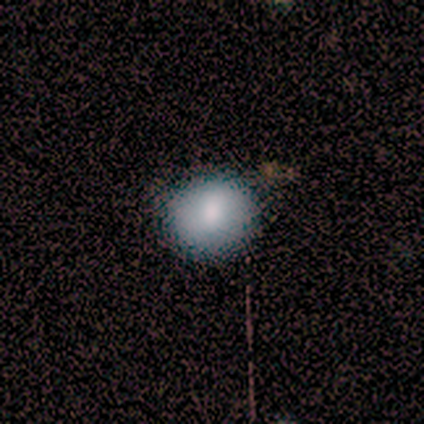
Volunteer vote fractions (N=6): This is clearly a smooth galaxy (100%). How rounded: clearly round (83%). Merging: clearly none (100%).